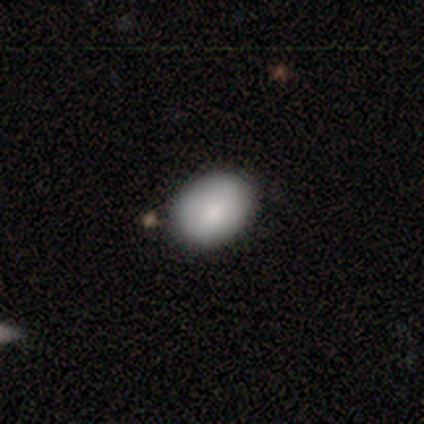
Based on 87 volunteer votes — smooth 84%, featured or disk 11%, star or artifact 5%. Down the decision tree: how rounded — in between (70%); merging — none (81%).